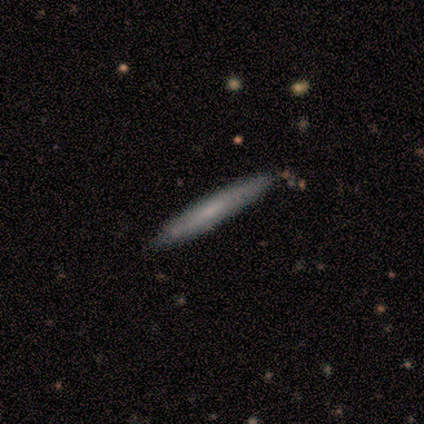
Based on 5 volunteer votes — A smooth galaxy with no disk features (100%) that is cigar-shaped (100%).

Vote fractions:
- Smooth or featured? smooth: 100% / featured or disk: 0% / star or artifact: 0%
- How rounded? cigar-shaped: 100% / round: 0% / in between: 0%
- Merging? none: 100% / minor disturbance: 0% / major disturbance: 0% / merger: 0%